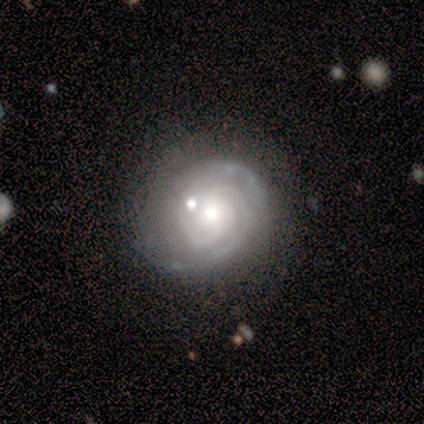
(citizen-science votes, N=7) featured or disk 100%, smooth 0%, star or artifact 0%. Down the decision tree: edge-on disk — no (71%); bar — weak (60%); spiral arms — yes (100%); spiral arm count — 3 (40%, tied with 4); spiral winding — tight (40%, tied with medium); bulge size — moderate (40%, tied with small); merging — none (86%).